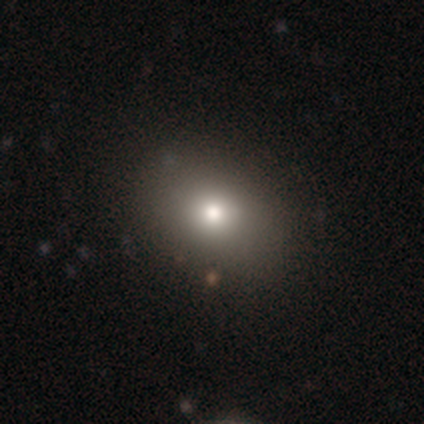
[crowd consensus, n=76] Smooth or featured?
  - smooth: 76% *
  - featured or disk: 12%
  - star or artifact: 12%
How rounded?
  - in between: 52% *
  - round: 48%
  - cigar-shaped: 0%
Merging?
  - none: 48% *
  - minor disturbance: 1%
  - major disturbance: 1%
  - merger: 0%